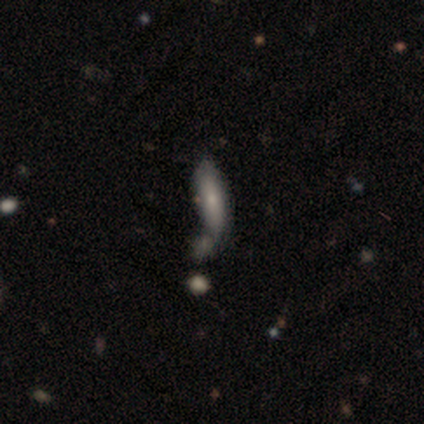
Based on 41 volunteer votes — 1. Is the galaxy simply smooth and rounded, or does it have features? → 51% smooth, 37% featured or disk, 12% star or artifact.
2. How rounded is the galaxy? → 57% cigar-shaped, 43% in between, 0% round.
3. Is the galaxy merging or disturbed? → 56% none, 25% merger, 11% minor disturbance, 8% major disturbance.